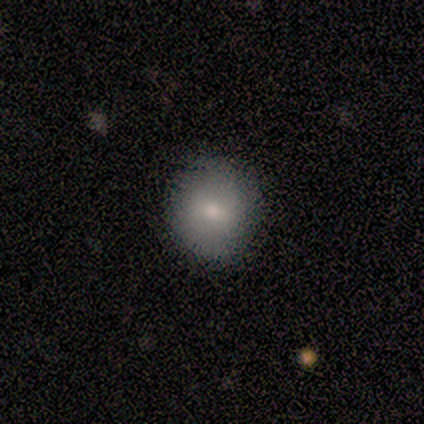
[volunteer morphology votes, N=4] Q: Smooth or featured?
A: smooth (50%); tied with: featured or disk (50%)
Q: How rounded?
A: round (100%)
Q: Merging?
A: none (75%); runner-up: minor disturbance (25%)